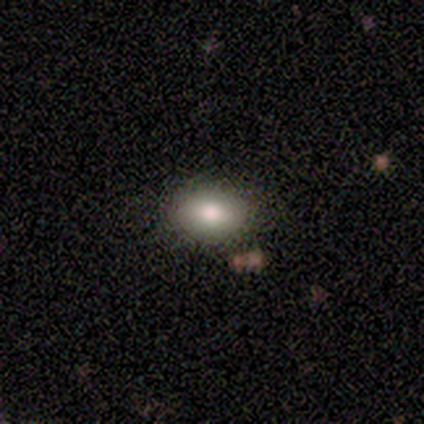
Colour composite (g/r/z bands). It shows a smooth galaxy with no disk features (75%) that is in between round and cigar-shaped (100%). Merging: none (100%).